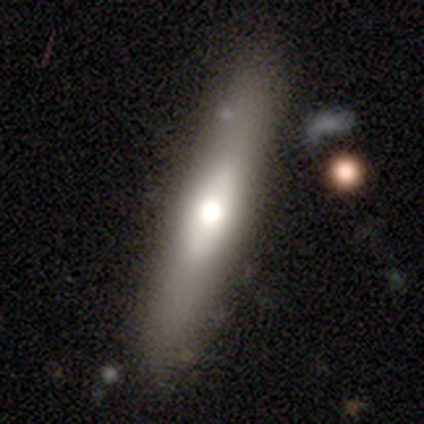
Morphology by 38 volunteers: A featured or disk galaxy (50%) viewed edge-on (89%) with a rounded central bulge (94%).

Vote fractions:
- Smooth or featured? featured or disk: 50% / smooth: 47% / star or artifact: 3%
- Edge-on disk? yes: 89% / no: 11%
- Edge-on bulge? rounded: 94% / none: 6% / boxy: 0%
- Merging? none: 73% / minor disturbance: 14% / major disturbance: 11% / merger: 3%